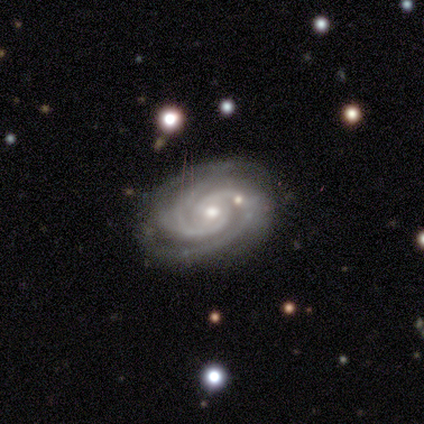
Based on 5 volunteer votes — This appears to be a featured or disk galaxy (100%) with no bar (60%), 2 (40%, tied with 4) tight (80%) spiral arms (100%) and a small central bulge (60%). Merging: none (60%).